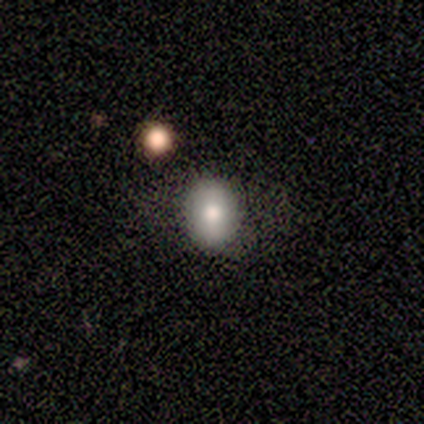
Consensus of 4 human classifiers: smooth-or-featured: smooth: 75% | star or artifact: 25% | featured or disk: 0%
  how-rounded: in between: 100% | round: 0% | cigar-shaped: 0%
  merging: minor disturbance: 67% | none: 33% | major disturbance: 0% | merger: 0%